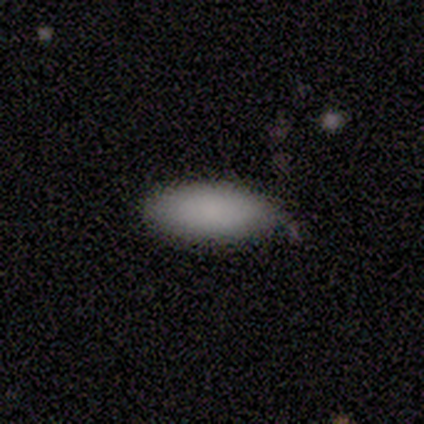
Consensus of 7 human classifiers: smooth 86%, star or artifact 14%, featured or disk 0%. Down the decision tree: how rounded — in between (100%); merging — none (83%).